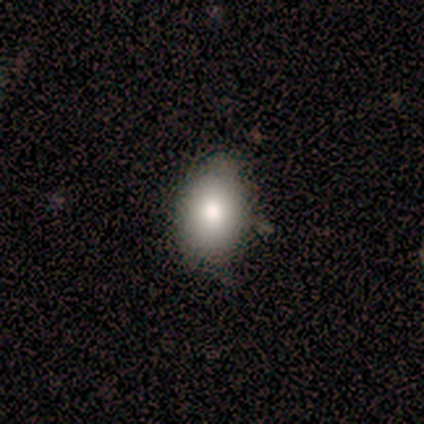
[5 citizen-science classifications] Overall: smooth (80%). How rounded: in between (75%). Merging: none (75%).